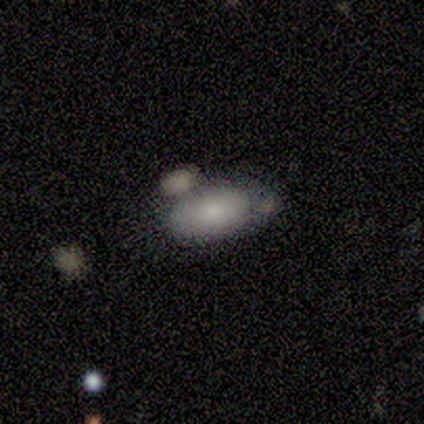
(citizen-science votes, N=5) Overall: smooth (60%; featured or disk 40%). How rounded: in between (100%). Merging: none (40%, tied with merger).